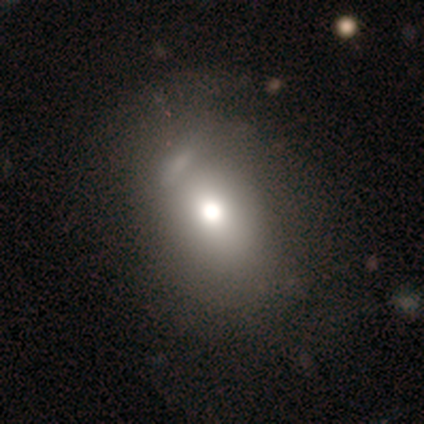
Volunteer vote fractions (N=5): Smooth or featured: smooth — 60% (featured or disk — 40%)
How rounded: round — 67% (in between — 33%)
Merging: none — 40% (tied with minor disturbance — 40%)